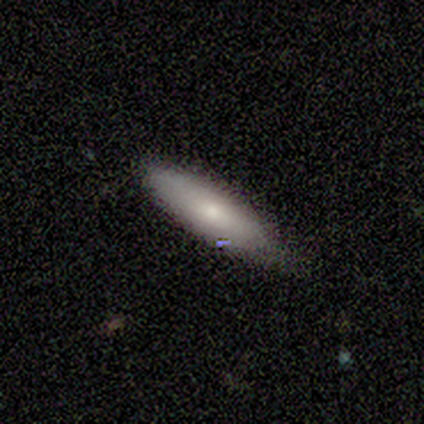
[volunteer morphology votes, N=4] This appears to be a smooth galaxy with no disk features (50%, tied with star or artifact) that is in between round and cigar-shaped (50%, tied with cigar-shaped). Merging: none (50%, tied with minor disturbance).